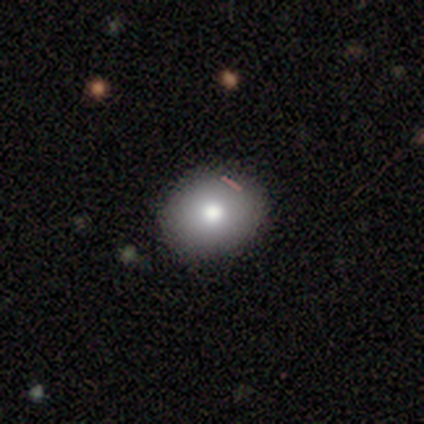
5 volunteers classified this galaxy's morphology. This appears to be a smooth galaxy with no disk features (100%) that is in between round and cigar-shaped (80%). Merging: none (100%).